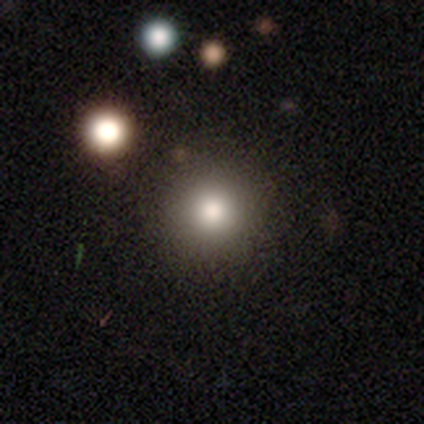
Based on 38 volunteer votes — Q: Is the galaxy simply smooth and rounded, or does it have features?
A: smooth — 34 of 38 (89%).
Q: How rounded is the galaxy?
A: round — 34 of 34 (100%).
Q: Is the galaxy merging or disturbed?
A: none — 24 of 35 (69%).